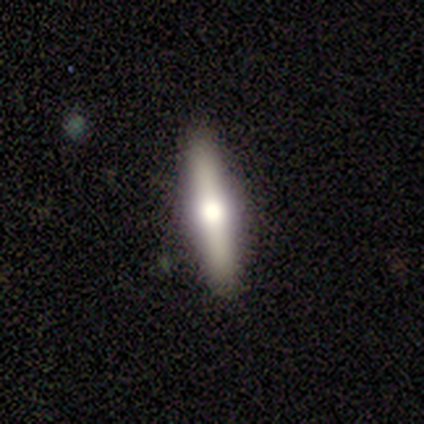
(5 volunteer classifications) Smooth or featured? featured or disk (60%)
Edge-on disk? yes (67%)
Edge-on bulge? rounded (100%)
Merging? none (80%)